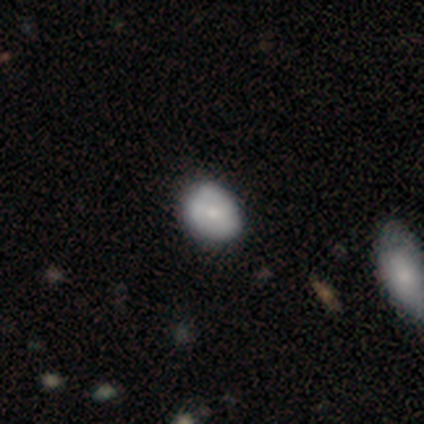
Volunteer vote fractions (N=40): A smooth galaxy with no disk features (72%) that is round (52%). Merging: none (46%).